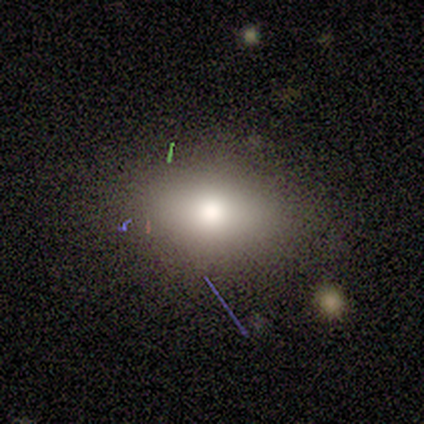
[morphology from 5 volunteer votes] A smooth galaxy with no disk features (60%) that is in between round and cigar-shaped (100%). Merging: none (100%).